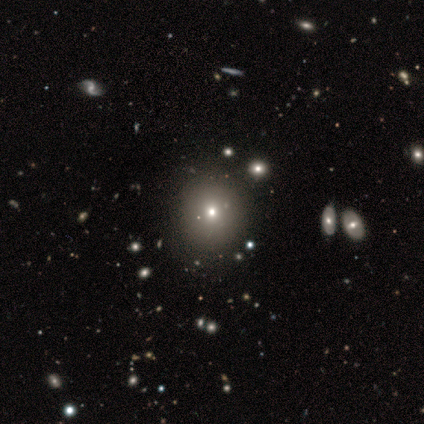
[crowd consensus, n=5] Smooth or featured: smooth — 60% (featured or disk — 20%)
How rounded: round — 100%
Merging: none — 75% (minor disturbance — 25%)